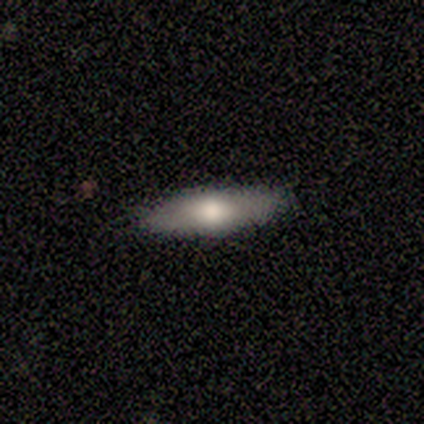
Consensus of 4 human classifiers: smooth 50%, featured or disk 25%, star or artifact 25%. Down the decision tree: how rounded — in between (100%); merging — none (100%).